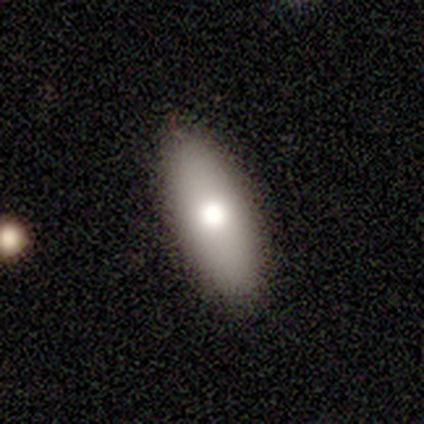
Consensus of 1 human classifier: Smooth or featured: smooth — 100%
How rounded: in between — 100%
Merging: none — 100%